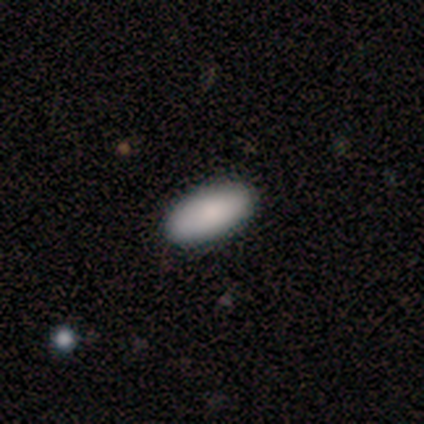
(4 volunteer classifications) Smooth or featured?
  - smooth: 100% *
  - featured or disk: 0%
  - star or artifact: 0%
How rounded?
  - in between: 100% *
  - round: 0%
  - cigar-shaped: 0%
Merging?
  - none: 100% *
  - minor disturbance: 0%
  - major disturbance: 0%
  - merger: 0%